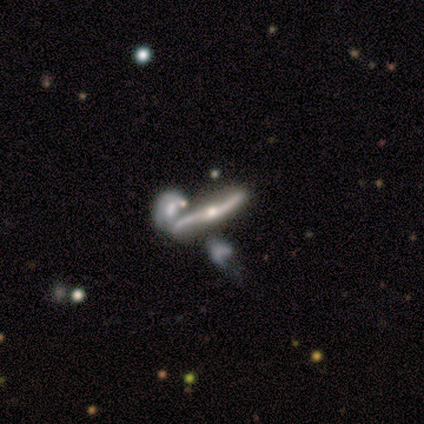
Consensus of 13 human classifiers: A featured or disk galaxy (85%) with no bar (50%), 2 (80%) loose (80%) spiral arms (83%) and a moderate central bulge (50%, tied with small).

Vote fractions:
- Smooth or featured? featured or disk: 85% / smooth: 8% / star or artifact: 8%
- Edge-on disk? no: 55% / yes: 45%
- Bar? no: 50% / weak: 33% / strong: 17%
- Spiral arms? yes: 83% / no: 17%
- Spiral winding? loose: 80% / tight: 20% / medium: 0%
- Spiral arm count? 2: 80% / can't tell: 20% / 1: 0% / 3: 0% / 4: 0% / more than 4: 0%
- Bulge size? moderate: 50% (tied) / small: 50% (tied) / dominant: 0% / large: 0% / none: 0%
- Merging? merger: 42% / none: 25% / major disturbance: 25% / minor disturbance: 8%